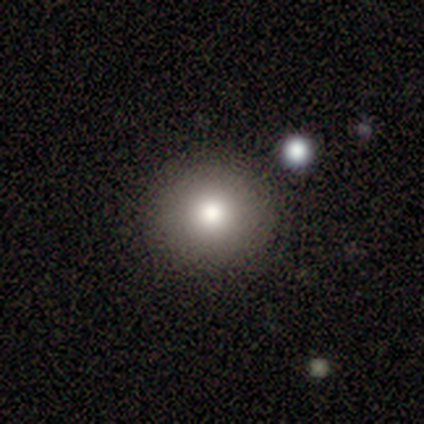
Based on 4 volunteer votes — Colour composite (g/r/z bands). It shows a smooth galaxy with no disk features (100%) that is round (100%). Merging: none (75%).